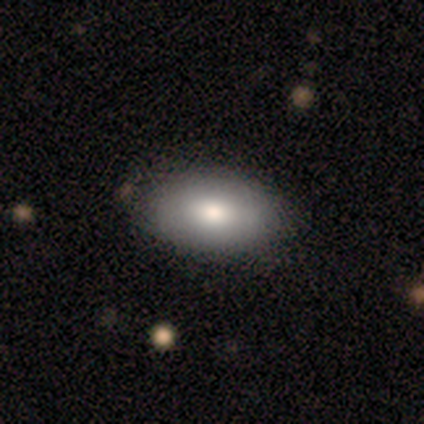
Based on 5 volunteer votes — This appears to be a smooth galaxy with no disk features (80%) that is in between round and cigar-shaped (100%). Merging: none (60%).